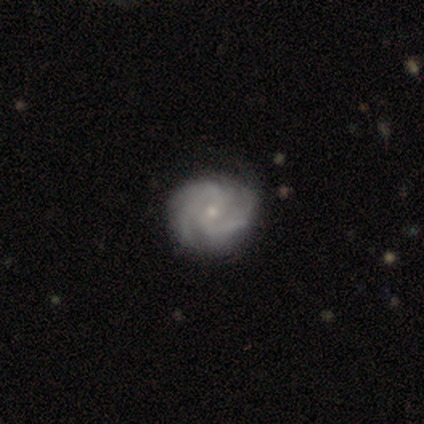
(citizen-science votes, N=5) Volunteers were most divided on "bar": no: 50%, strong: 25%, weak: 25%. More confident: edge-on disk — no (100%); spiral arms — yes (100%); bulge size — small (100%); merging — none (100%); smooth or featured — featured or disk (80%); spiral winding — tight (75%); spiral arm count — 3 (75%).